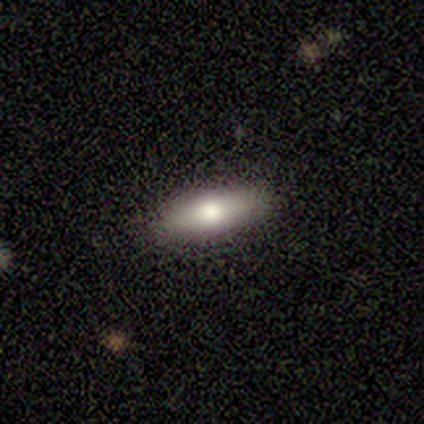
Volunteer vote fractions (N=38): Morphology: type=smooth (61%); roundness=in between (52%); merging=none (91%).